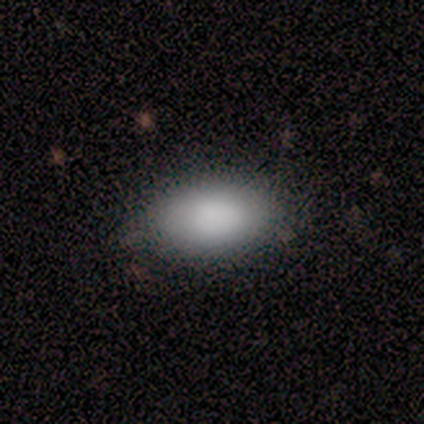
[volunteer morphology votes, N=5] Q: Smooth or featured?
A: smooth (100%)
Q: How rounded?
A: in between (80%); runner-up: round (20%)
Q: Merging?
A: none (100%)